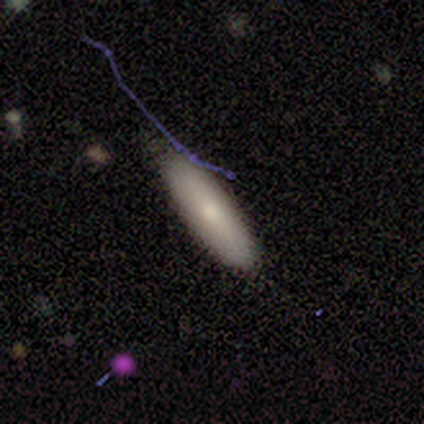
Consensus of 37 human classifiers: Smooth or featured: smooth — 70% (featured or disk — 22%)
How rounded: cigar-shaped — 62% (in between — 38%)
Merging: none — 76% (minor disturbance — 21%)